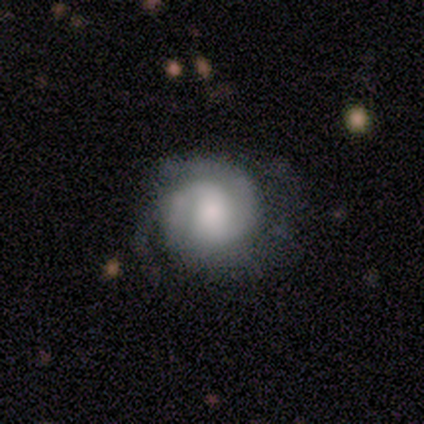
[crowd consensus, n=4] Overall: featured or disk (75%). Edge-on disk: no (100%). Bar: weak (67%; no 33%). Spiral arms: yes (100%). Spiral arm count: 2 (33%, tied with 3 and can't tell). Spiral winding: tight (67%; medium 33%). Bulge size: moderate (67%; large 33%). Merging: none (50%, tied with minor disturbance).